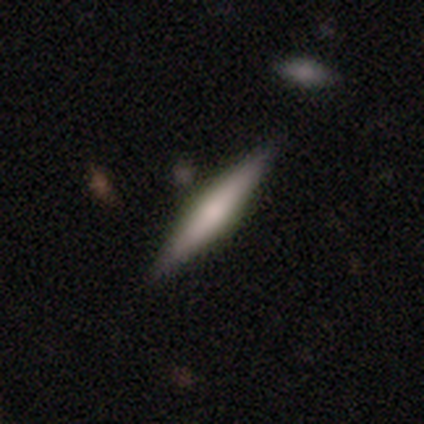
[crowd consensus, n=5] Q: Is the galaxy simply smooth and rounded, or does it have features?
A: featured or disk — 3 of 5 (60%).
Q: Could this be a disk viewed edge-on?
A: yes — 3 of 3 (100%).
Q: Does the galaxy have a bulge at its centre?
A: rounded — 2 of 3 (67%).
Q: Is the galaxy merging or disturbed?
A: none — 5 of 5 (100%).